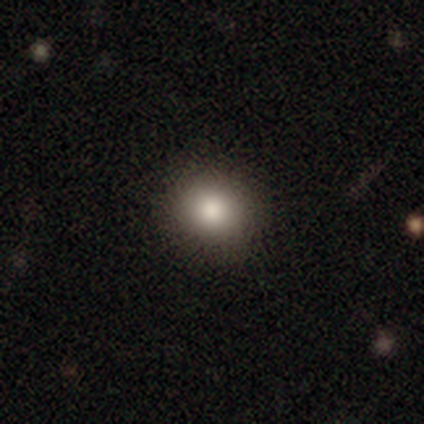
Q: Smooth or featured?
A: smooth (89%); runner-up: featured or disk (6%)
Q: How rounded?
A: round (89%); runner-up: in between (11%)
Q: Merging?
A: none (48%); runner-up: minor disturbance (3%)